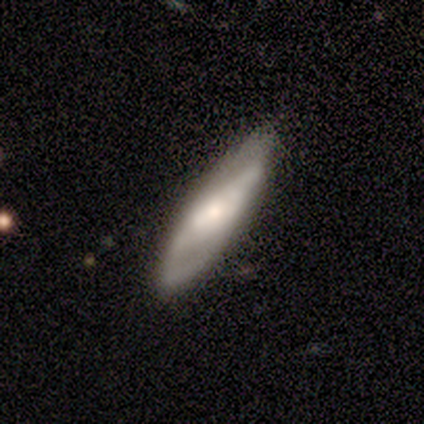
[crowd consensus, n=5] Smooth or featured? featured or disk (60%)
Edge-on disk? no (100%)
Bar? no (67%)
Spiral arms? yes (67%)
Spiral winding? medium (100%)
Spiral arm count? 2 (50%, tied with can't tell)
Bulge size? dominant (33%, tied with large and moderate)
Merging? none (60%)